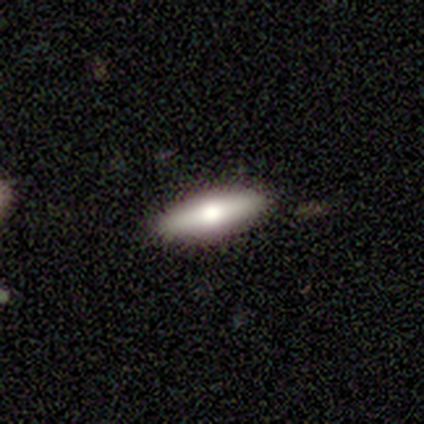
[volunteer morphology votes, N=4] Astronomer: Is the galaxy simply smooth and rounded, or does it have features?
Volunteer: featured or disk — 75%.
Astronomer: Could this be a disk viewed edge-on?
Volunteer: yes — 67%.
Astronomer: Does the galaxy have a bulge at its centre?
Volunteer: rounded — 100%.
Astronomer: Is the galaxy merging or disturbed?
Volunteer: none — 100%.